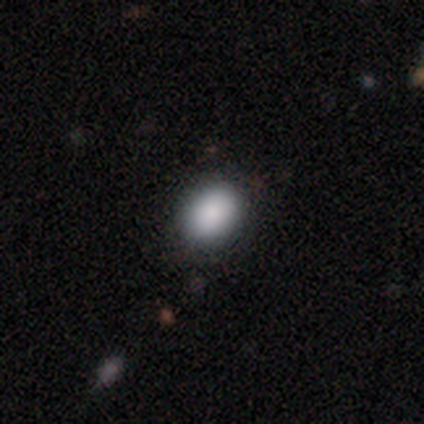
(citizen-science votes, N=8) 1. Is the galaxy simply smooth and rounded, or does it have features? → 75% smooth, 25% featured or disk, 0% star or artifact.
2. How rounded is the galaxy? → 50% round (tied), 50% in between (tied), 0% cigar-shaped.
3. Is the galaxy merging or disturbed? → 88% none, 12% minor disturbance, 0% major disturbance, 0% merger.